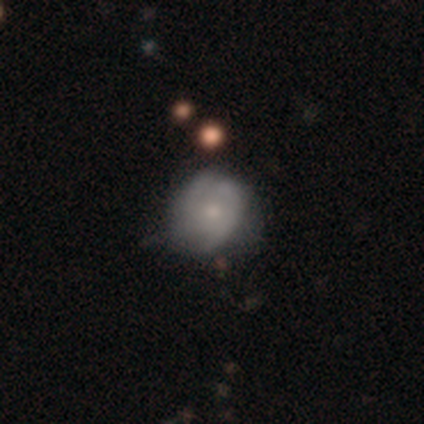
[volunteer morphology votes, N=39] smooth_or_featured: smooth (p=0.46) [alt: featured or disk p=0.41]
how_rounded: round (p=0.72) [alt: in between p=0.28]
merging: none (p=0.41) [tied with: minor disturbance p=0.41]